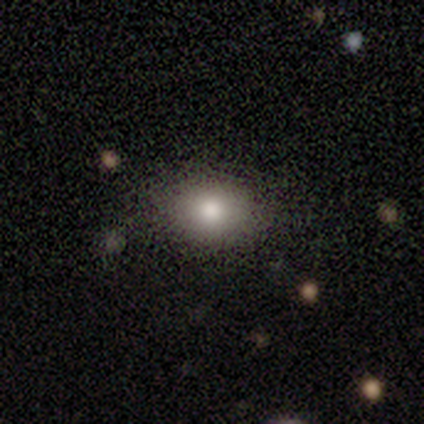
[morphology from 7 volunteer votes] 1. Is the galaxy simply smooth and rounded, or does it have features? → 100% smooth, 0% featured or disk, 0% star or artifact.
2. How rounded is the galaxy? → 71% in between, 29% round, 0% cigar-shaped.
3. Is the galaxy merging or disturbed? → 71% none, 29% minor disturbance, 0% major disturbance, 0% merger.